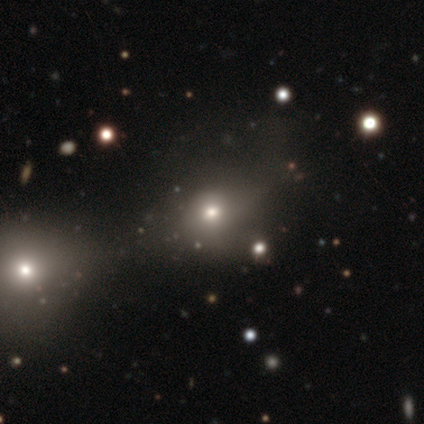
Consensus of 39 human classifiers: Volunteers were most divided on "how rounded": in between: 55%, round: 40%, cigar-shaped: 5%. More confident: merging — none (52%); smooth or featured — smooth (51%).